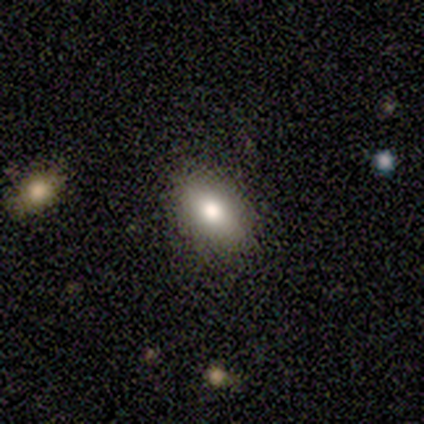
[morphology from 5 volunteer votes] smooth 80%, featured or disk 20%, star or artifact 0%. Down the decision tree: how rounded — in between (100%); merging — none (80%).